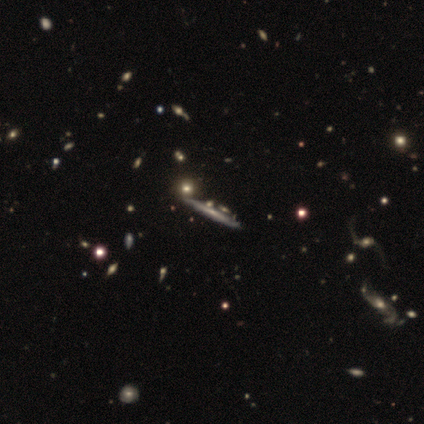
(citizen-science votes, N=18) This is likely a featured or disk galaxy (72%). It is clearly viewed edge-on (92%). Edge-on bulge: likely none (67%). Merging: likely none (79%).